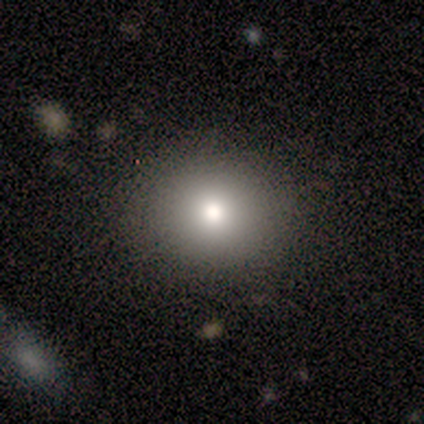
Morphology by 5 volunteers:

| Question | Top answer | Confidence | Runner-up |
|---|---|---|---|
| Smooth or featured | smooth | 60% | star or artifact (40%) |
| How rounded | round | 100% | — |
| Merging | none | 100% | — |